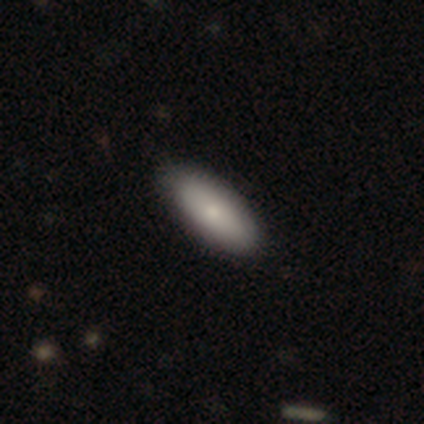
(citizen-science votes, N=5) Smooth or featured: smooth — 80% (star or artifact — 20%)
How rounded: in between — 75% (cigar-shaped — 25%)
Merging: none — 50% (tied with minor disturbance — 50%)